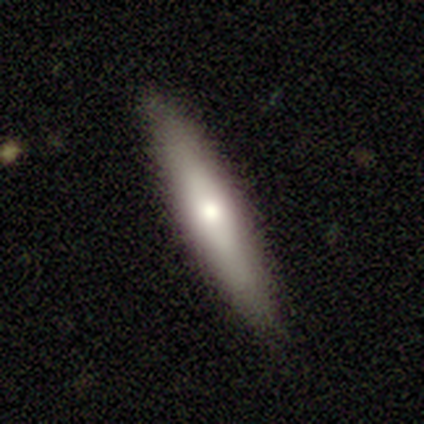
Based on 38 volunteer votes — Volunteers were most divided on "smooth or featured" (2-way tie): smooth: 50%, featured or disk: 50%, star or artifact: 0%. More confident: how rounded — cigar-shaped (84%); merging — none (84%).